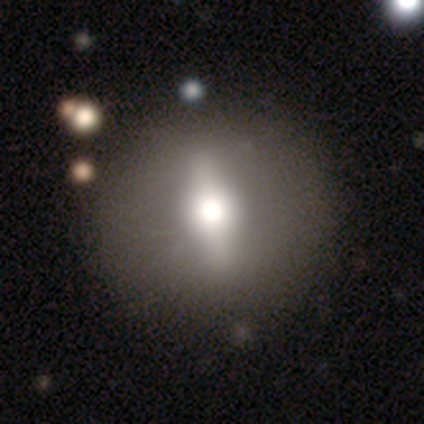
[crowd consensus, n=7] Morphology: type=featured or disk (71%); edge-on=no (60%); bar=strong (100%); spiral arms=no (100%); bulge=moderate (100%); merging=none (86%).